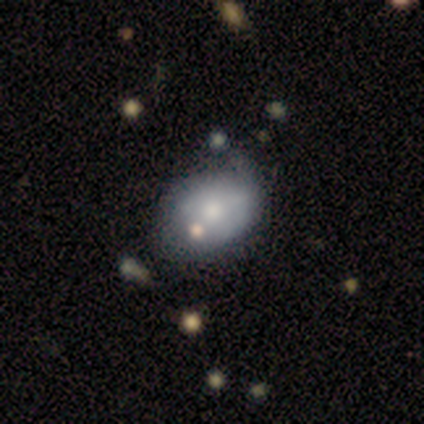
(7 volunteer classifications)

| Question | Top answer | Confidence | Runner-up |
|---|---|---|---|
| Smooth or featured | smooth | 71% | featured or disk (14%) |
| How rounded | in between | 60% | round (40%) |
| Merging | none | 50% | tied: minor disturbance (50%) |